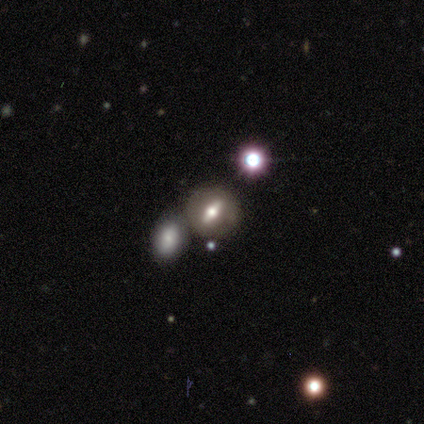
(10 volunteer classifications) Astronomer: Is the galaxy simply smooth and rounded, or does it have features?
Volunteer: featured or disk — 60%.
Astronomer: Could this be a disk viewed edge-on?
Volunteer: no — 67%.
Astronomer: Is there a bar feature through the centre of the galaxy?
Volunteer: strong — 75%.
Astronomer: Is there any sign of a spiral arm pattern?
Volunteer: no — 100%.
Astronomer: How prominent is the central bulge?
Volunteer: moderate — 50%.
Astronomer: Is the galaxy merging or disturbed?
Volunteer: none — 67%.